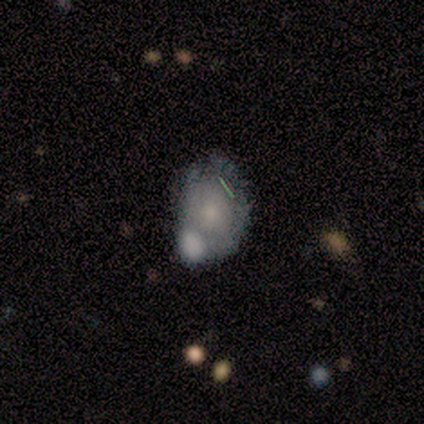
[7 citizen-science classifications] Smooth or featured?
  - featured or disk: 57% *
  - smooth: 43%
  - star or artifact: 0%
Edge-on disk?
  - no: 100% *
  - yes: 0%
Bar?
  - no: 100% *
  - strong: 0%
  - weak: 0%
Spiral arms?
  - no: 75% *
  - yes: 25%
Bulge size?
  - small: 100% *
  - dominant: 0%
  - large: 0%
  - moderate: 0%
  - none: 0%
Merging?
  - minor disturbance: 57% *
  - merger: 43%
  - none: 0%
  - major disturbance: 0%